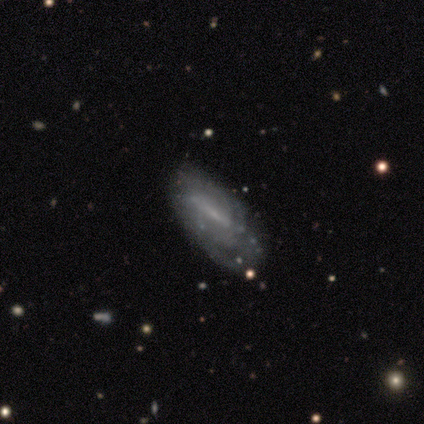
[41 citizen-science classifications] smooth-or-featured: featured or disk: 80% | smooth: 17% | star or artifact: 2%
  disk-edge-on: no: 91% | yes: 9%
    bar: strong: 43% | weak: 40% | no: 17%
    has-spiral-arms: yes: 67% | no: 33%
      spiral-winding: tight: 50% | loose: 35% | medium: 15%
      spiral-arm-count: can't tell: 75% | 2: 10% | 1: 5% | 3: 5% | more than 4: 5% | 4: 0%
    bulge-size: small: 57% | none: 37% | moderate: 7% | dominant: 0% | large: 0%
  merging: none: 68% | minor disturbance: 20% | major disturbance: 12% | merger: 0%